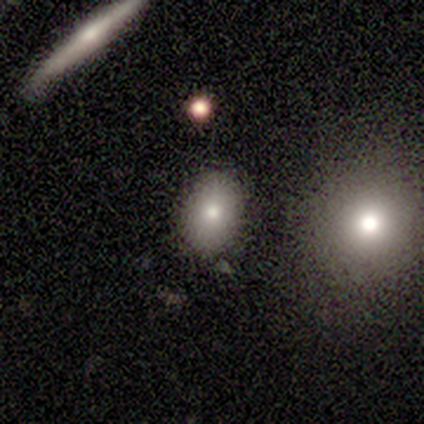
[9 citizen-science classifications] smooth_or_featured: smooth (p=0.89) [alt: featured or disk p=0.11]
how_rounded: in between (p=0.75) [alt: round p=0.12]
merging: none (p=0.89) [alt: minor disturbance p=0.11]